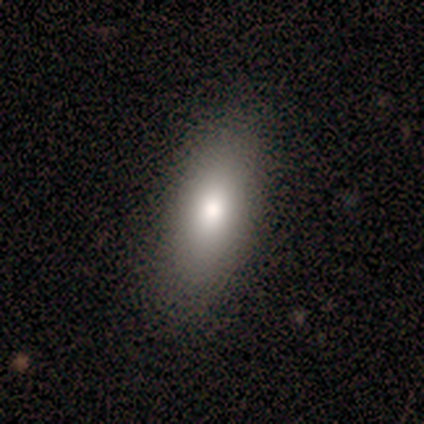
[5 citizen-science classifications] Smooth or featured? smooth (80%)
How rounded? in between (100%)
Merging? none (100%)